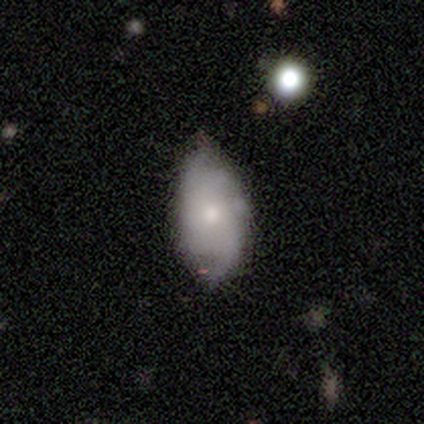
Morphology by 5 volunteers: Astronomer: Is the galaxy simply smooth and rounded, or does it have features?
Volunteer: featured or disk — 80%.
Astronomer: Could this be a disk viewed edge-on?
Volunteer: no — 75%.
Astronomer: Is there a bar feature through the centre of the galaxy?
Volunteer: no — 100%.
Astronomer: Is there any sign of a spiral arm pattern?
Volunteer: yes — 100%.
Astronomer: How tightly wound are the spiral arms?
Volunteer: tight — 67%.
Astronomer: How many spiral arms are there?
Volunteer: can't tell — 67%.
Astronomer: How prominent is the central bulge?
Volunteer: small — 100%.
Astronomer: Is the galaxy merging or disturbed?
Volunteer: none — 80%.